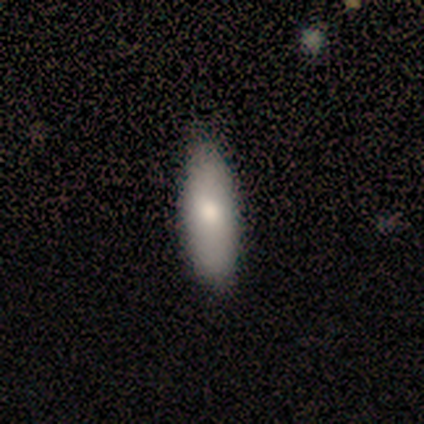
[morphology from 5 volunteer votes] smooth 100%, featured or disk 0%, star or artifact 0%. Down the decision tree: how rounded — cigar-shaped (60%); merging — none (100%).